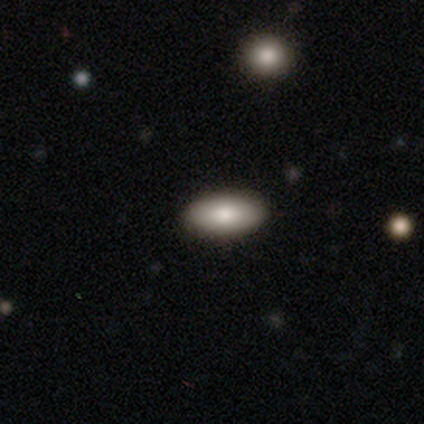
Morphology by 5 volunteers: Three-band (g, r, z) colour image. It shows a smooth galaxy with no disk features (100%) that is in between round and cigar-shaped (80%). Merging: none (100%).